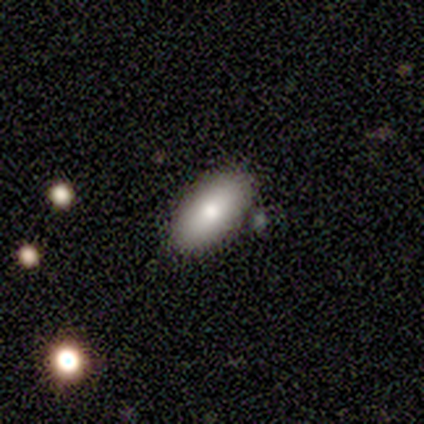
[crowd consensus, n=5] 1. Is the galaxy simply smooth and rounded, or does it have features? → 80% smooth, 20% featured or disk, 0% star or artifact.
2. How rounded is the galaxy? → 100% in between, 0% round, 0% cigar-shaped.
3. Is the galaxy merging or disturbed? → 80% none, 20% minor disturbance, 0% major disturbance, 0% merger.